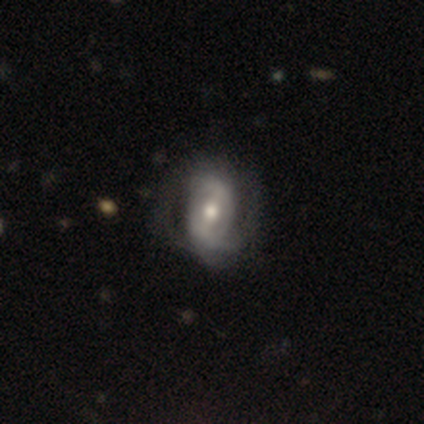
Morphology: type=featured or disk (60%); edge-on=no (100%); bar=strong (67%); spiral arms=yes (100%); winding=medium (67%); arm count=can't tell (67%); bulge=moderate (67%); merging=none (60%).